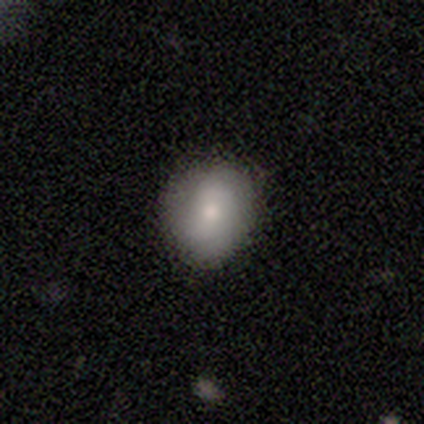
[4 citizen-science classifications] smooth-or-featured: smooth: 100% | featured or disk: 0% | star or artifact: 0%
  how-rounded: round: 100% | in between: 0% | cigar-shaped: 0%
  merging: none: 100% | minor disturbance: 0% | major disturbance: 0% | merger: 0%